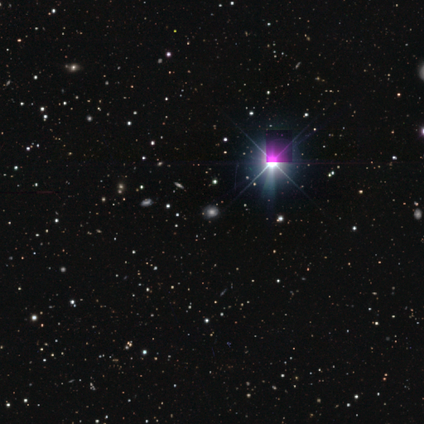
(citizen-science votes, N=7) Smooth or featured? 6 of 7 (86%) said star or artifact.